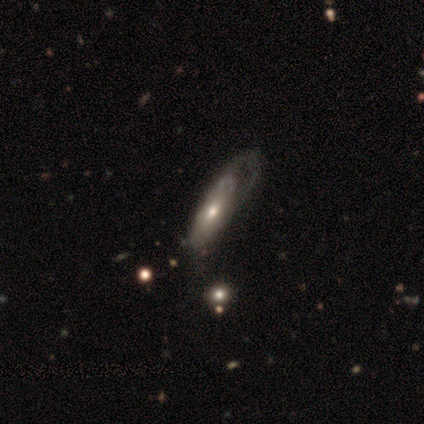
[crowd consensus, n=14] A featured or disk galaxy (93%) with no bar (89%), 1 (67%) tight (50%, tied with loose) spiral arms (67%) and a moderate central bulge (78%). Merging: major disturbance (50%).